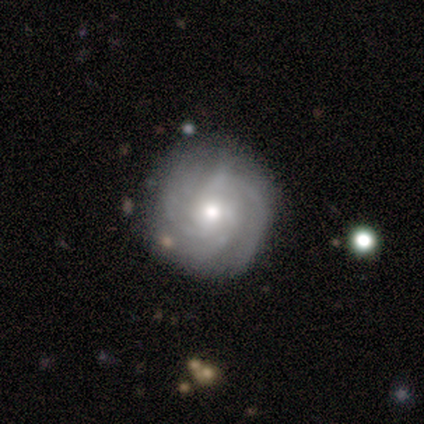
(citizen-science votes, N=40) Q: Smooth or featured?
A: featured or disk (88%); runner-up: smooth (10%)
Q: Edge-on disk?
A: no (100%)
Q: Bar?
A: no (69%); runner-up: weak (29%)
Q: Spiral arms?
A: yes (100%)
Q: Spiral winding?
A: tight (51%); runner-up: medium (40%)
Q: Spiral arm count?
A: can't tell (40%); runner-up: 3 (23%)
Q: Bulge size?
A: moderate (74%); runner-up: small (26%)
Q: Merging?
A: none (79%); runner-up: minor disturbance (15%)